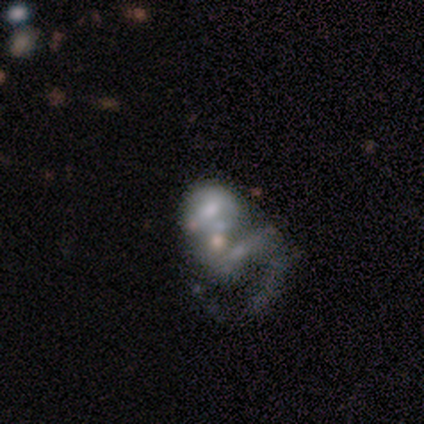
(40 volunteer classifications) smooth_or_featured: featured or disk (p=0.72) [alt: smooth p=0.17]
disk_edge_on: no (p=0.97) [alt: yes p=0.03]
bar: no (p=0.57) [alt: weak p=0.29]
has_spiral_arms: yes (p=0.54) [alt: no p=0.46]
spiral_winding: loose (p=0.67) [alt: medium p=0.20]
spiral_arm_count: can't tell (p=0.53) [alt: 1 p=0.27]
bulge_size: small (p=0.46) [alt: moderate p=0.25]
merging: merger (p=0.47) [alt: major disturbance p=0.28]